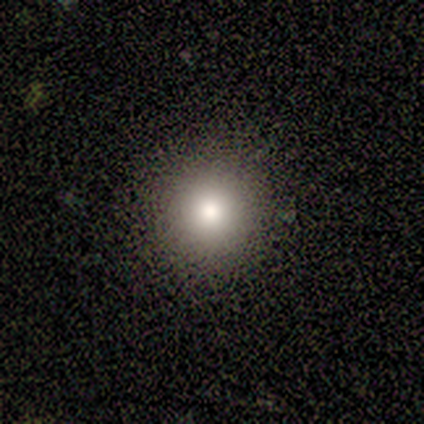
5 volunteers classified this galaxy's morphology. Smooth or featured? smooth (40%, tied with star or artifact)
How rounded? round (100%)
Merging? none (100%)